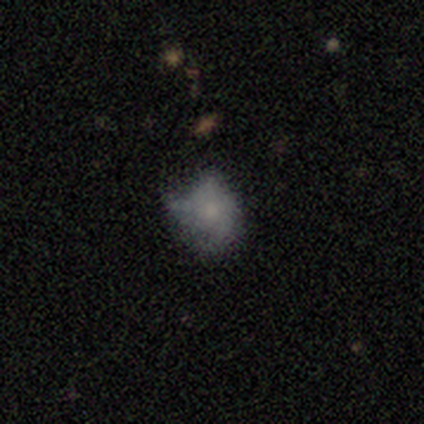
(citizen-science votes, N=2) A smooth galaxy with no disk features (100%) that is round (50%, tied with in between).

Vote fractions:
- Smooth or featured? smooth: 100% / featured or disk: 0% / star or artifact: 0%
- How rounded? round: 50% (tied) / in between: 50% (tied) / cigar-shaped: 0%
- Merging? minor disturbance: 50% (tied) / major disturbance: 50% (tied) / none: 0% / merger: 0%